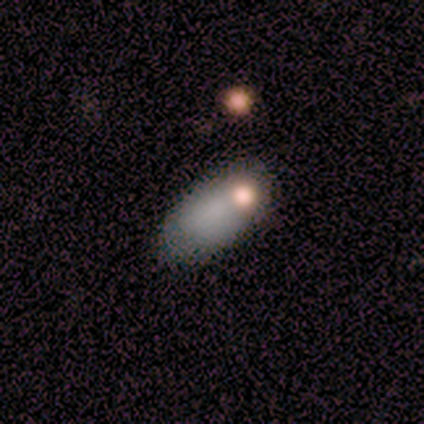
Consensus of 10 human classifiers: Smooth or featured? 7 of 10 (70%) said smooth. How rounded? 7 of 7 (100%) said in between. Merging? 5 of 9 (56%) said none.